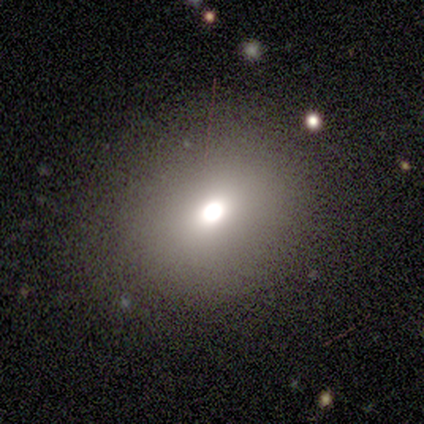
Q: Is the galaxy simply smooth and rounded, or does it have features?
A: smooth — 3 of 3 (100%).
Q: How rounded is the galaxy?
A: round — 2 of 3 (67%).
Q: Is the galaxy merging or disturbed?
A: none — 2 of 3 (67%).